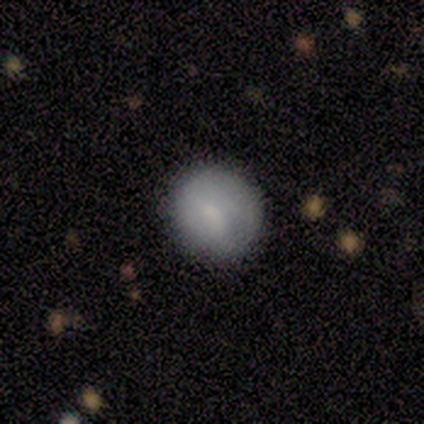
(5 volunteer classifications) A smooth galaxy with no disk features (100%) that is round (100%). Merging: none (80%).